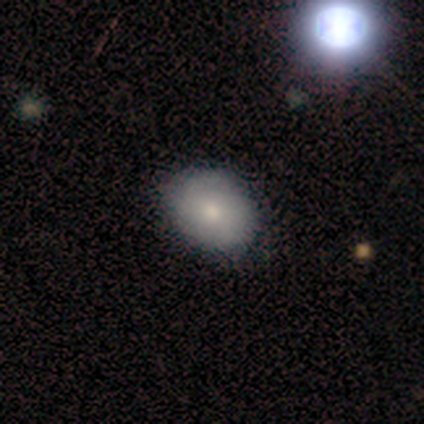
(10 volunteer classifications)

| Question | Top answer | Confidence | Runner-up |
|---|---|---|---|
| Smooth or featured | smooth | 80% | featured or disk (20%) |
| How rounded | in between | 88% | round (12%) |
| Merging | none | 70% | minor disturbance (30%) |